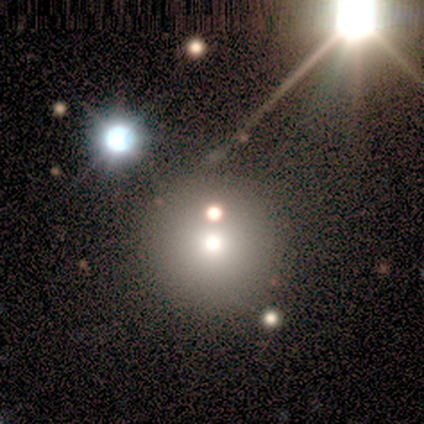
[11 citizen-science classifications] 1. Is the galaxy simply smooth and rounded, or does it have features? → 45% smooth (tied), 45% star or artifact (tied), 9% featured or disk.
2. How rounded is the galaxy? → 100% round, 0% in between, 0% cigar-shaped.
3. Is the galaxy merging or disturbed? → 67% none, 17% major disturbance, 17% merger, 0% minor disturbance.